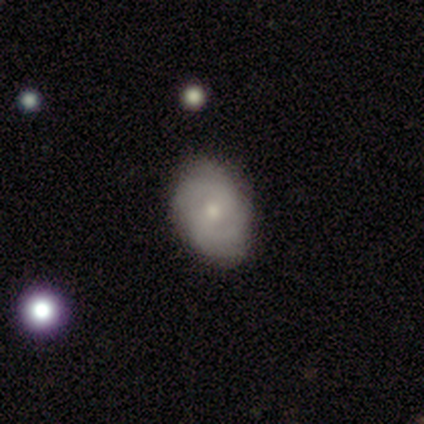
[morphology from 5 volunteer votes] smooth-or-featured: featured or disk: 60% | smooth: 20% | star or artifact: 20%
  disk-edge-on: no: 100% | yes: 0%
    bar: weak: 67% | no: 33% | strong: 0%
    has-spiral-arms: yes: 100% | no: 0%
      spiral-winding: medium: 67% | tight: 33% | loose: 0%
      spiral-arm-count: 2: 100% | 1: 0% | 3: 0% | 4: 0% | more than 4: 0% | can't tell: 0%
    bulge-size: moderate: 67% | small: 33% | dominant: 0% | large: 0% | none: 0%
  merging: none: 75% | minor disturbance: 25% | major disturbance: 0% | merger: 0%